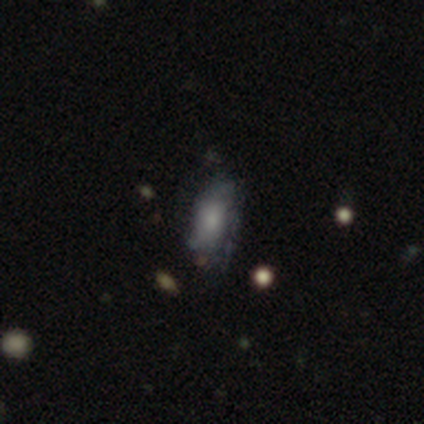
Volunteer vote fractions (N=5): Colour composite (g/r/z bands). It shows a smooth galaxy with no disk features (60%) that is in between round and cigar-shaped (67%). Merging: minor disturbance (75%).